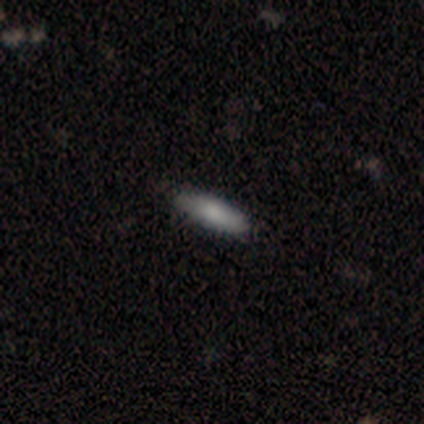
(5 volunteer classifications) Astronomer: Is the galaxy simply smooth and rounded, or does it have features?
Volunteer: smooth — 80%.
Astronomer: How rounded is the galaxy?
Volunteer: cigar-shaped — 75%.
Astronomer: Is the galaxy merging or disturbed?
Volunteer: none — 80%.